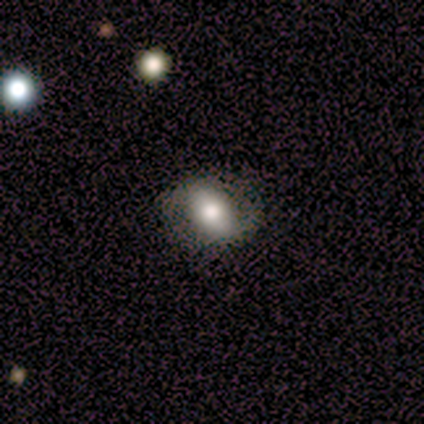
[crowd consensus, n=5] Smooth or featured?
  - smooth: 40% * (tied)
  - featured or disk: 40% * (tied)
  - star or artifact: 20%
How rounded?
  - round: 50% * (tied)
  - in between: 50% * (tied)
  - cigar-shaped: 0%
Merging?
  - none: 75% *
  - minor disturbance: 25%
  - major disturbance: 0%
  - merger: 0%